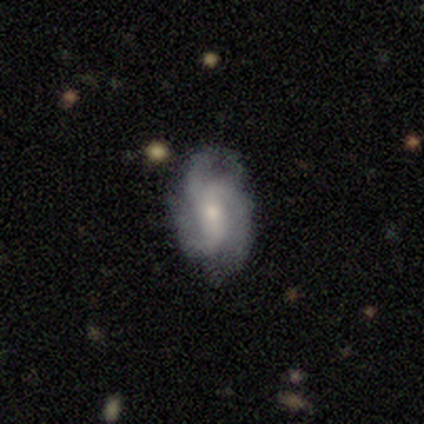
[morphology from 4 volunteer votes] smooth-or-featured: featured or disk: 100% | smooth: 0% | star or artifact: 0%
  disk-edge-on: no: 100% | yes: 0%
    bar: no: 75% | weak: 25% | strong: 0%
    has-spiral-arms: yes: 100% | no: 0%
      spiral-winding: loose: 100% | tight: 0% | medium: 0%
      spiral-arm-count: 3: 75% | can't tell: 25% | 1: 0% | 2: 0% | 4: 0% | more than 4: 0%
    bulge-size: small: 75% | moderate: 25% | dominant: 0% | large: 0% | none: 0%
  merging: none: 75% | minor disturbance: 25% | major disturbance: 0% | merger: 0%